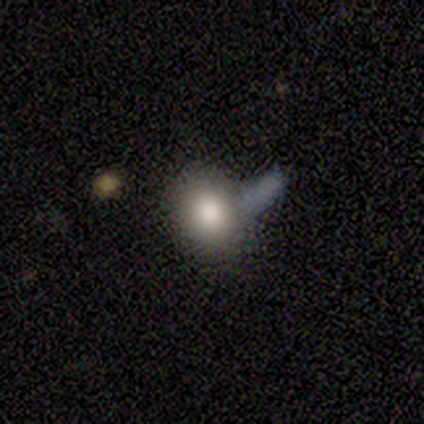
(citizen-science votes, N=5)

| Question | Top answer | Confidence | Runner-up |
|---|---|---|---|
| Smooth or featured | smooth | 60% | featured or disk (20%) |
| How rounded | round | 67% | in between (33%) |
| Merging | none | 50% | tied: minor disturbance (50%) |